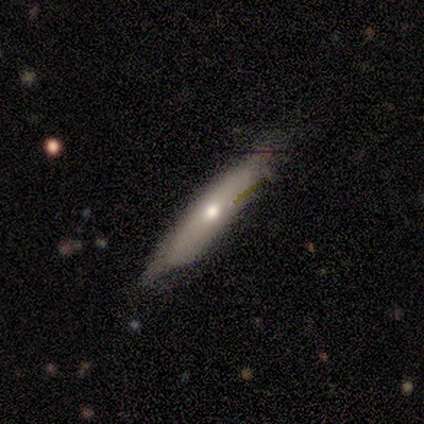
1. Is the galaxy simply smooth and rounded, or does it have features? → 33% smooth (tied), 33% featured or disk (tied), 33% star or artifact (tied).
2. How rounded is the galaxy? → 100% cigar-shaped, 0% round, 0% in between.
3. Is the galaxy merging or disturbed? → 100% minor disturbance, 0% none, 0% major disturbance, 0% merger.